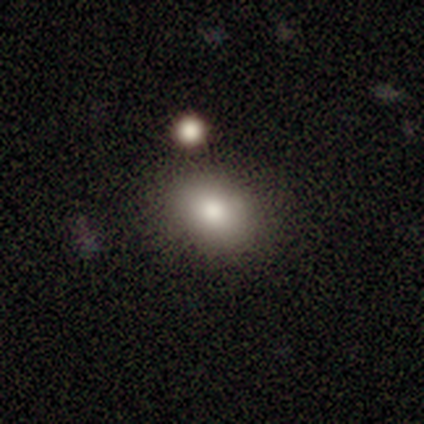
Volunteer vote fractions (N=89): This appears to be a smooth galaxy with no disk features (83%) that is in between round and cigar-shaped (70%). Merging: none (80%).